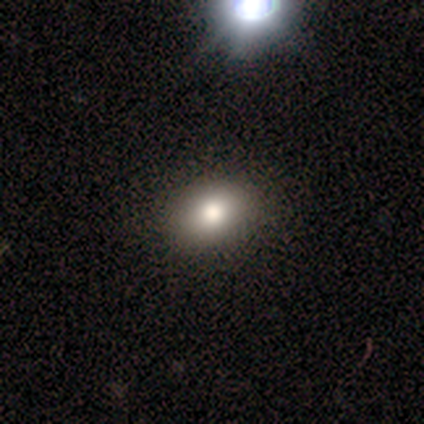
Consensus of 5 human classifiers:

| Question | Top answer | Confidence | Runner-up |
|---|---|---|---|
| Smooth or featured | smooth | 80% | star or artifact (20%) |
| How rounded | in between | 75% | round (25%) |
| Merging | none | 100% | — |